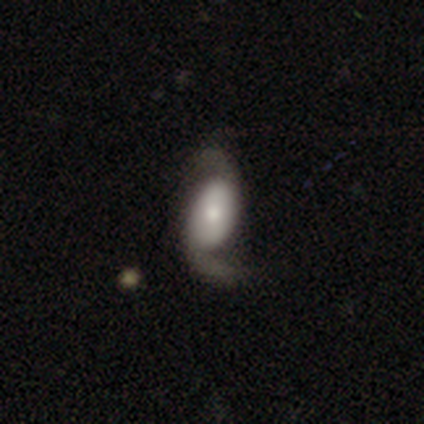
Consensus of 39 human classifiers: This appears to be a featured or disk galaxy (74%) with no bar (48%), 2 (93%) loose (68%) spiral arms (97%) and a moderate central bulge (41%). Merging: none (70%).